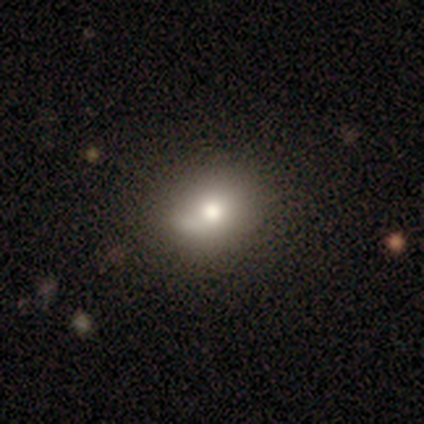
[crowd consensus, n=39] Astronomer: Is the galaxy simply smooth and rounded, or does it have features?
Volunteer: smooth — 69%.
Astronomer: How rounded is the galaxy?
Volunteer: in between — 52% (runner-up: round, 48%).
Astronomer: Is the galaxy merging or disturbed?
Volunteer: none — 34% (runner-up: merger, 17%).